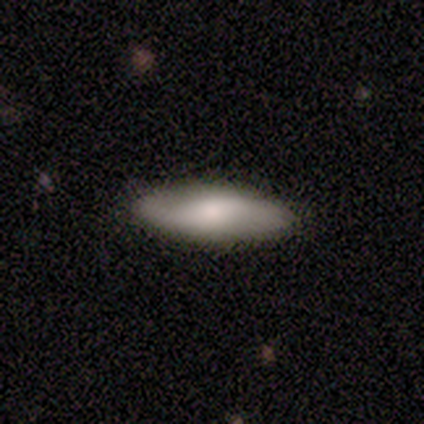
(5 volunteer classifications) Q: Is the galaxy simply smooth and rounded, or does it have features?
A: smooth — 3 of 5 (60%).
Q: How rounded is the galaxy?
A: cigar-shaped — 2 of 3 (67%).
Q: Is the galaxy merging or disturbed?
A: none — 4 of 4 (100%).